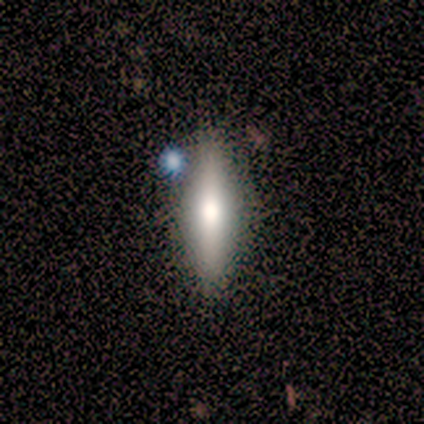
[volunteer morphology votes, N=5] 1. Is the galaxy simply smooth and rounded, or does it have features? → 40% smooth (tied), 40% featured or disk (tied), 20% star or artifact.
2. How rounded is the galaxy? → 100% cigar-shaped, 0% round, 0% in between.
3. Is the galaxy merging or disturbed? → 100% none, 0% minor disturbance, 0% major disturbance, 0% merger.